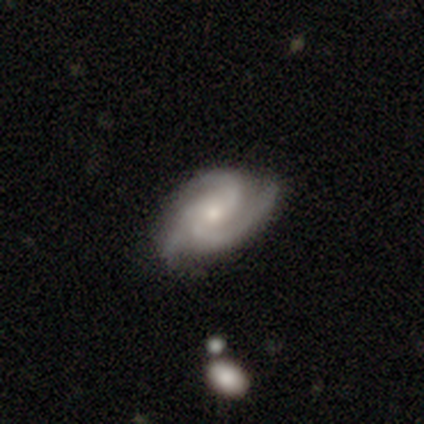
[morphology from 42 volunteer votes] This is clearly a featured or disk galaxy (90%). It is clearly not viewed edge-on (97%). Bar: likely no (68%). Spiral arm pattern: clearly yes (100%). Spiral arm count: clearly 3 (86%). Spiral winding: possibly tight (46%). Central bulge: likely small (62%). Merging: clearly none (85%).